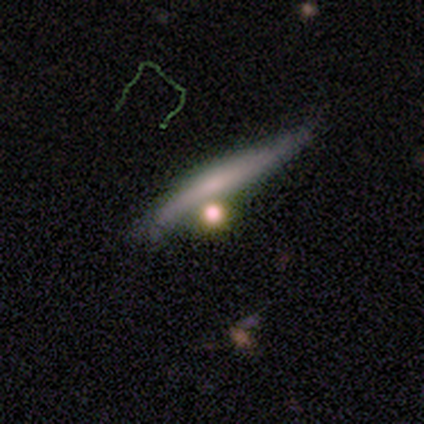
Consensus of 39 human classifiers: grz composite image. It shows a smooth galaxy with no disk features (51%) that is cigar-shaped (70%). Merging: none (45%).